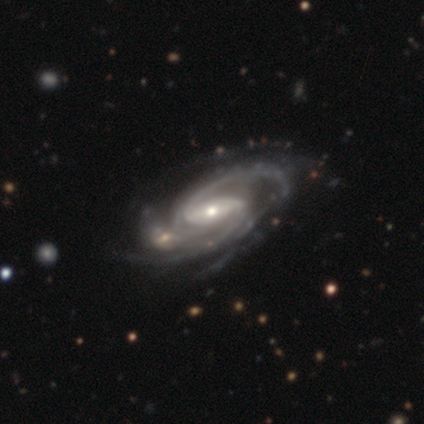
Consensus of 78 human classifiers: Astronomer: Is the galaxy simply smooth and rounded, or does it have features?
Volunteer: featured or disk — 96%.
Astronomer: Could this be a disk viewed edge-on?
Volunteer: no — 96%.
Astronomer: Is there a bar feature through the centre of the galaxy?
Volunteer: strong — 44% (runner-up: weak, 40%).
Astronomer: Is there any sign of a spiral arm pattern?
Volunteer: yes — 100%.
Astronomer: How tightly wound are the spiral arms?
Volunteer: medium — 61%.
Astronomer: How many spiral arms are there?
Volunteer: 2 — 58%.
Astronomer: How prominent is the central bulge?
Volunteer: small — 50% (runner-up: moderate, 46%).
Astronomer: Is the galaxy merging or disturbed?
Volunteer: none — 31% (runner-up: merger, 12%).